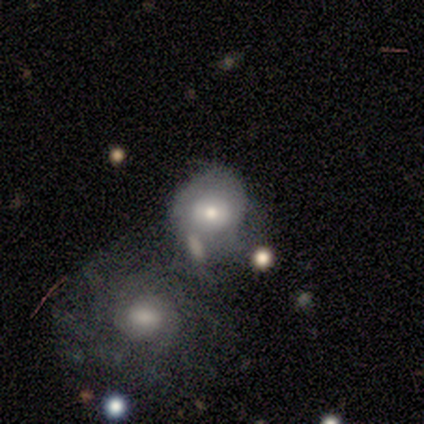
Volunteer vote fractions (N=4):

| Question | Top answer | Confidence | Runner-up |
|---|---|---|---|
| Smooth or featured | smooth | 75% | featured or disk (25%) |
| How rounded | round | 100% | — |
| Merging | none | 50% | tied: merger (50%) |